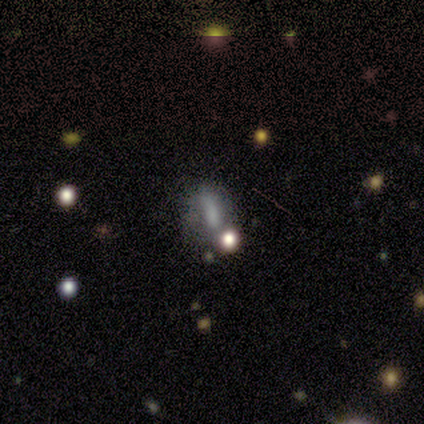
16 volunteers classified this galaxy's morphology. This appears to be a smooth galaxy with no disk features (44%) that is in between round and cigar-shaped (57%). Merging: merger (42%).